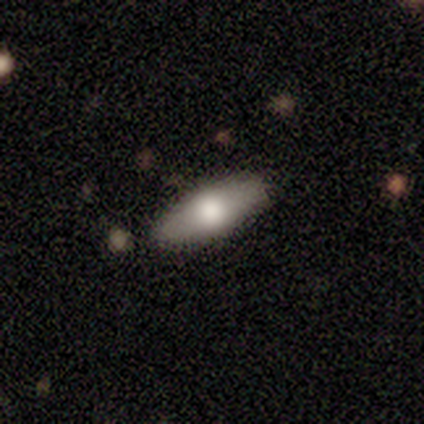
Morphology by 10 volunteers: A smooth galaxy with no disk features (80%) that is in between round and cigar-shaped (100%). Merging: none (90%).